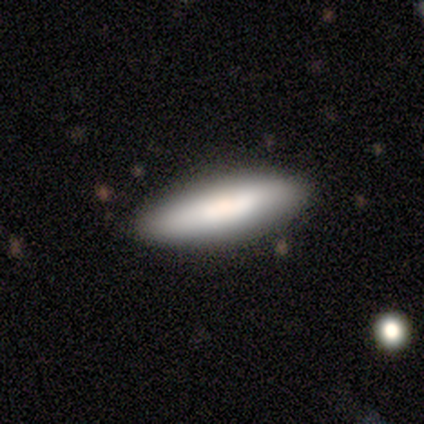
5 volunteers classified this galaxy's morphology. smooth 60%, featured or disk 40%, star or artifact 0%. Down the decision tree: how rounded — cigar-shaped (67%); merging — none (100%).